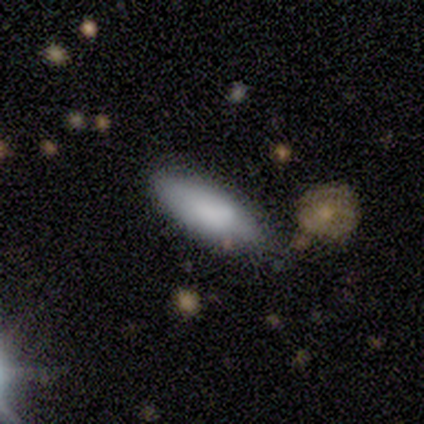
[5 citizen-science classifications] smooth-or-featured: smooth: 100% | featured or disk: 0% | star or artifact: 0%
  how-rounded: in between: 80% | cigar-shaped: 20% | round: 0%
  merging: none: 100% | minor disturbance: 0% | major disturbance: 0% | merger: 0%